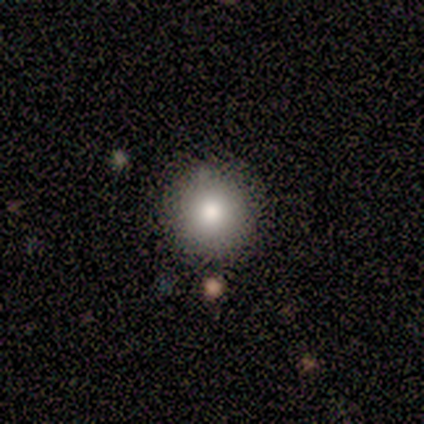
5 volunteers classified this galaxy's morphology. This is clearly a smooth galaxy (80%). How rounded: clearly round (100%). Merging: clearly none (100%).